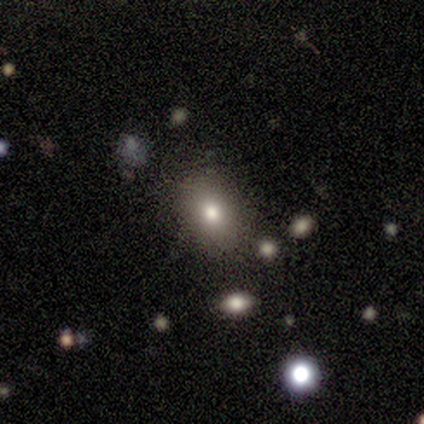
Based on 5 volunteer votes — This appears to be a smooth galaxy with no disk features (60%) that is in between round and cigar-shaped (67%). Merging: none (75%).